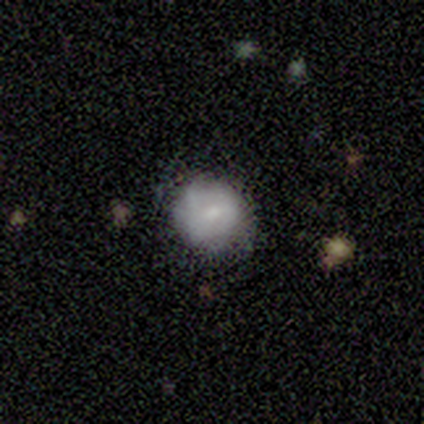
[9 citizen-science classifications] smooth 78%, featured or disk 22%, star or artifact 0%. Down the decision tree: how rounded — round (100%); merging — none (78%).